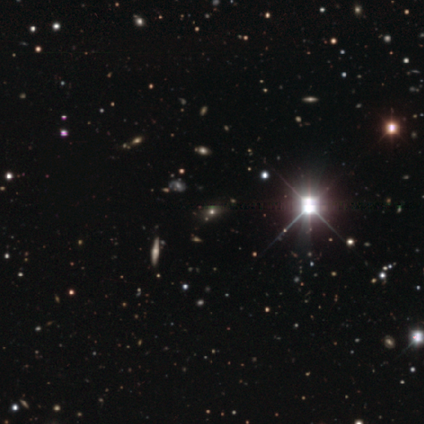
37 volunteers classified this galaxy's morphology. smooth_or_featured: star or artifact (p=0.81) [alt: smooth p=0.11]